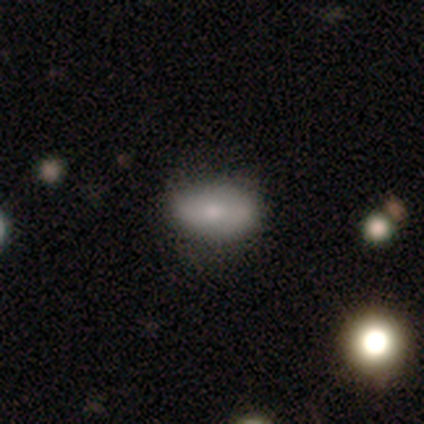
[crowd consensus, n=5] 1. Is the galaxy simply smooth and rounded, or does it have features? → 60% smooth, 20% featured or disk, 20% star or artifact.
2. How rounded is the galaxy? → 100% in between, 0% round, 0% cigar-shaped.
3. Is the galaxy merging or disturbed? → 75% none, 25% minor disturbance, 0% major disturbance, 0% merger.